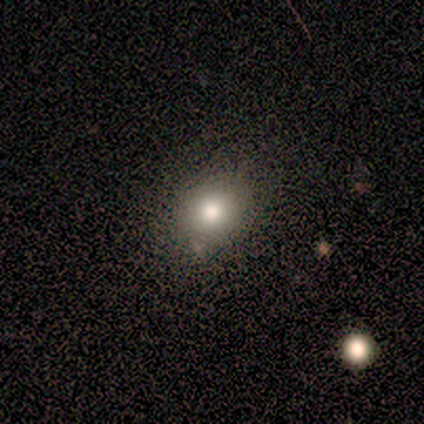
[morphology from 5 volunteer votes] Smooth or featured?
  - smooth: 60% *
  - featured or disk: 20%
  - star or artifact: 20%
How rounded?
  - round: 100% *
  - in between: 0%
  - cigar-shaped: 0%
Merging?
  - none: 100% *
  - minor disturbance: 0%
  - major disturbance: 0%
  - merger: 0%